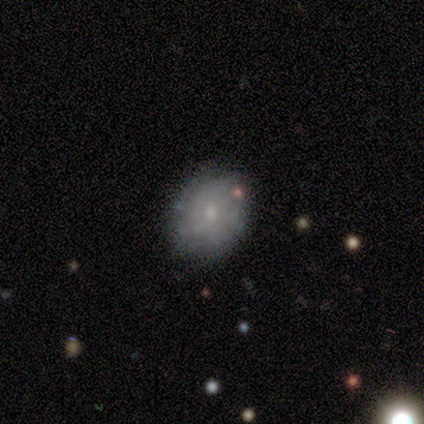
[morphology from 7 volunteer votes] Smooth or featured: featured or disk — 86% (smooth — 14%)
Edge-on disk: no — 100%
Bar: no — 100%
Spiral arms: yes — 50% (tied with no — 50%)
Spiral winding: tight — 100%
Spiral arm count: can't tell — 100%
Bulge size: small — 67% (moderate — 17%)
Merging: none — 86% (minor disturbance — 14%)